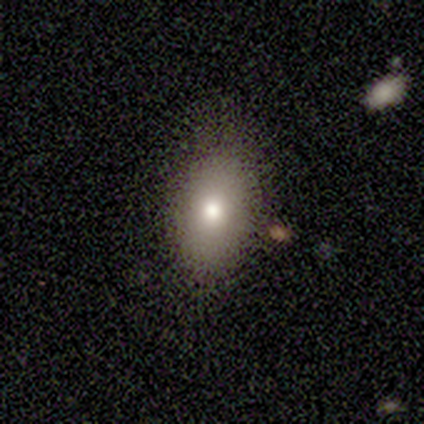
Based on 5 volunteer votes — smooth_or_featured: smooth (p=0.40) [tied with: featured or disk p=0.40]
how_rounded: in between (p=1.00)
merging: none (p=0.50) [alt: minor disturbance p=0.25]